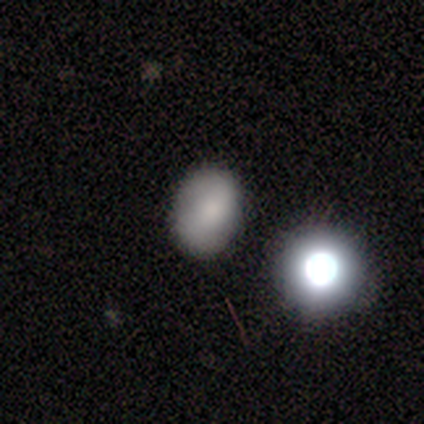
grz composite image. It shows a smooth galaxy with no disk features (72%) that is in between round and cigar-shaped (54%). Merging: none (76%).